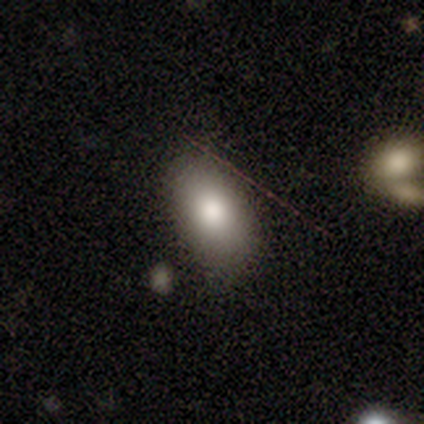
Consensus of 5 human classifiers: Consensus on every question: smooth or featured — smooth (100%); how rounded — in between (100%); merging — none (100%).